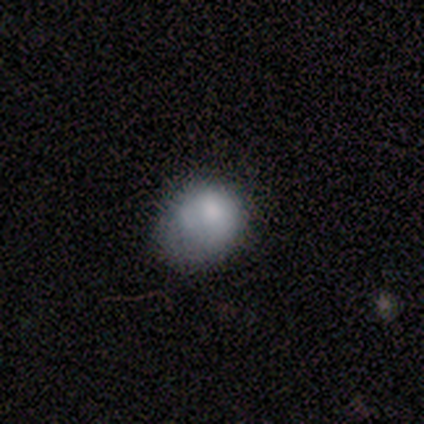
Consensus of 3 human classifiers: This is likely a smooth galaxy (67%). How rounded: clearly round (100%). Merging: clearly none (100%).